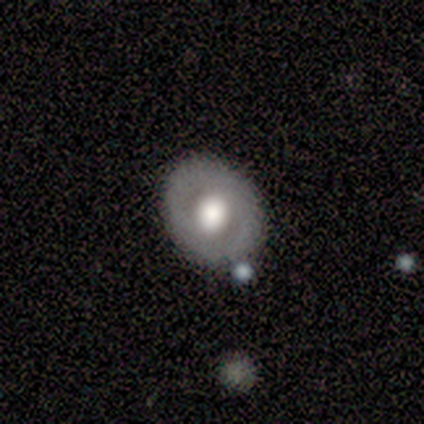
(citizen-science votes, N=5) featured or disk 60%, smooth 40%, star or artifact 0%. Down the decision tree: edge-on disk — no (67%); bar — no (100%); spiral arms — no (100%); bulge size — large (50%, tied with moderate); merging — none (100%).